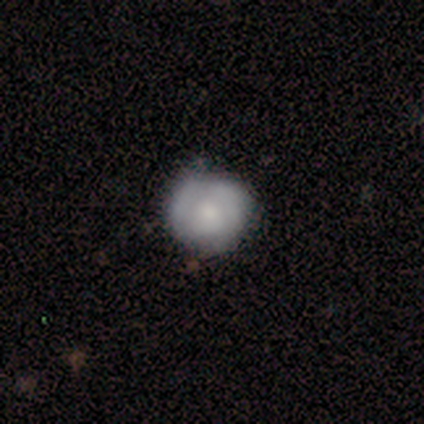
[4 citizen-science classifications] Q: Smooth or featured?
A: smooth (100%)
Q: How rounded?
A: round (100%)
Q: Merging?
A: none (100%)